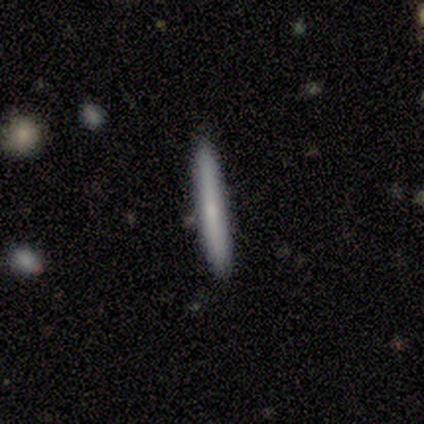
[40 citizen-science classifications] This appears to be a smooth galaxy with no disk features (57%) that is cigar-shaped (100%). Merging: none (92%).